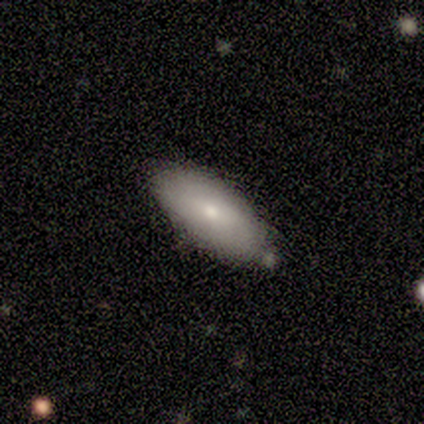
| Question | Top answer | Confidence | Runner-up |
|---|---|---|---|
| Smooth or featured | smooth | 100% | — |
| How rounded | in between | 100% | — |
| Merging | none | 80% | minor disturbance (20%) |